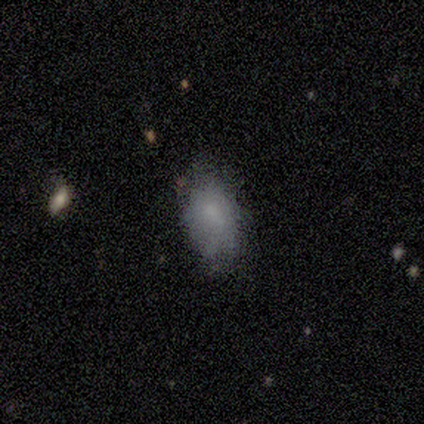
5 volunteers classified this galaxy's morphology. Q: Smooth or featured?
A: smooth (40%); tied with: featured or disk (40%)
Q: How rounded?
A: in between (100%)
Q: Merging?
A: none (50%); tied with: minor disturbance (50%)